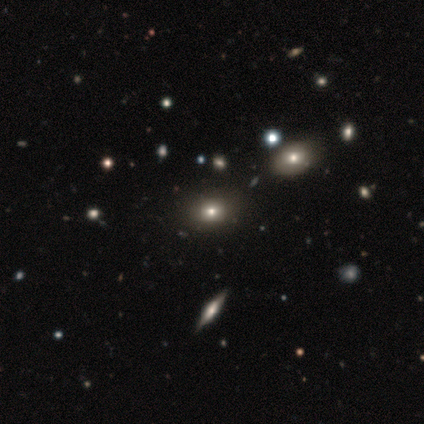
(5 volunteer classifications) A smooth galaxy with no disk features (60%) that is round (100%).

Vote fractions:
- Smooth or featured? smooth: 60% / featured or disk: 40% / star or artifact: 0%
- How rounded? round: 100% / in between: 0% / cigar-shaped: 0%
- Merging? none: 100% / minor disturbance: 0% / major disturbance: 0% / merger: 0%